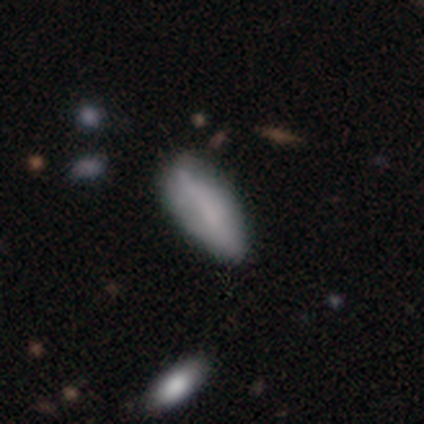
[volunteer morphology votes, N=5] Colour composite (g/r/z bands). It shows a smooth galaxy with no disk features (80%) that is in between round and cigar-shaped (75%). Merging: none (75%).